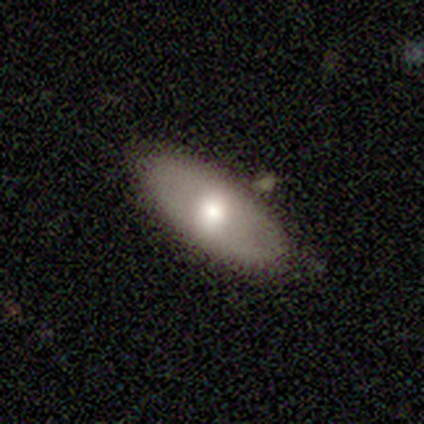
A smooth galaxy with no disk features (72%) that is in between round and cigar-shaped (98%).

Vote fractions:
- Smooth or featured? smooth: 72% / featured or disk: 25% / star or artifact: 2%
- How rounded? in between: 98% / cigar-shaped: 2% / round: 0%
- Merging? none: 42% / merger: 8% / minor disturbance: 6% / major disturbance: 0%